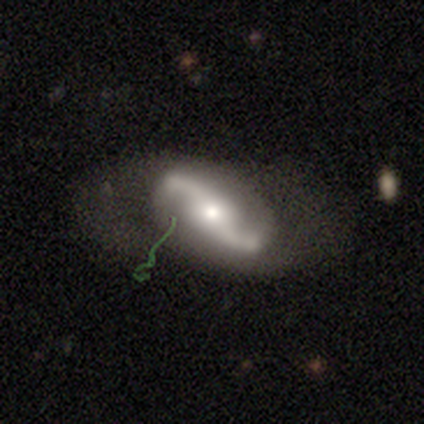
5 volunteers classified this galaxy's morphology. Smooth or featured? featured or disk (60%)
Edge-on disk? no (100%)
Bar? no (67%)
Spiral arms? yes (100%)
Spiral winding? loose (100%)
Spiral arm count? 2 (100%)
Bulge size? small (67%)
Merging? none (100%)